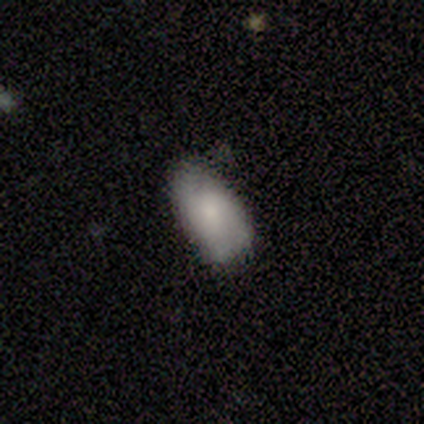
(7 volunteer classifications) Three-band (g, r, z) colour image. It shows a smooth galaxy with no disk features (57%) that is in between round and cigar-shaped (100%). Merging: minor disturbance (57%).